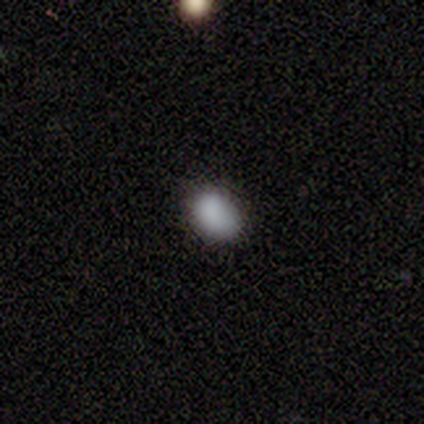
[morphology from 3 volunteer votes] smooth 100%, featured or disk 0%, star or artifact 0%. Down the decision tree: how rounded — round (67%); merging — none (100%).